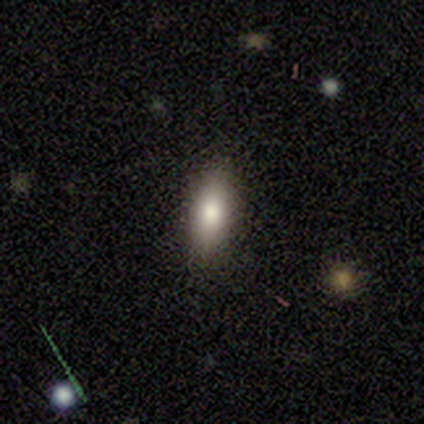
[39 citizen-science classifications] Q: Smooth or featured?
A: smooth (87%); runner-up: featured or disk (8%)
Q: How rounded?
A: in between (56%); runner-up: cigar-shaped (41%)
Q: Merging?
A: none (89%); runner-up: minor disturbance (5%)